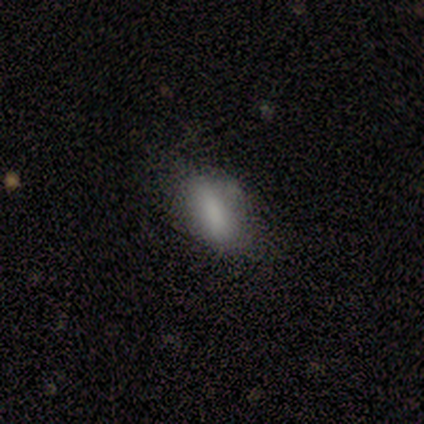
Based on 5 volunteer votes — Morphology: type=smooth (100%); roundness=in between (100%); merging=none (60%).